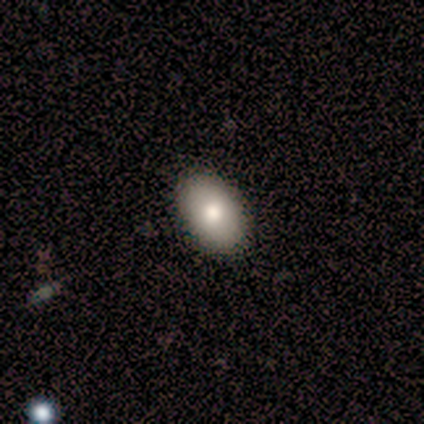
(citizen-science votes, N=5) Smooth or featured: smooth — 100%
How rounded: in between — 80% (round — 20%)
Merging: none — 100%